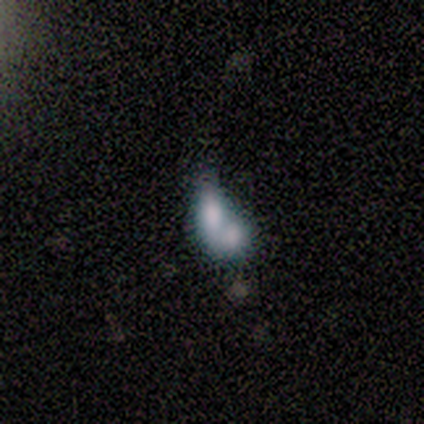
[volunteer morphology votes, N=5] A smooth galaxy with no disk features (60%) that is in between round and cigar-shaped (100%).

Vote fractions:
- Smooth or featured? smooth: 60% / featured or disk: 20% / star or artifact: 20%
- How rounded? in between: 100% / round: 0% / cigar-shaped: 0%
- Merging? merger: 100% / none: 0% / minor disturbance: 0% / major disturbance: 0%